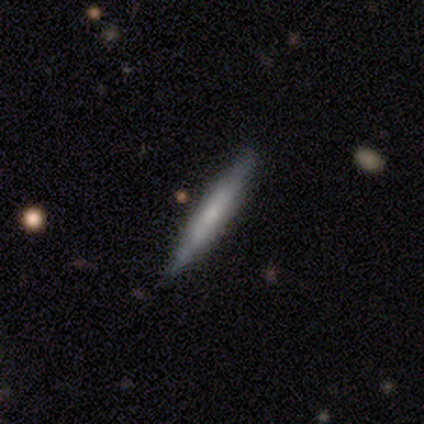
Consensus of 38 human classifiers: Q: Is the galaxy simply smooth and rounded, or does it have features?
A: featured or disk — 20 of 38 (53%).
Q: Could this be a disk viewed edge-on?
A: yes — 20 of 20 (100%).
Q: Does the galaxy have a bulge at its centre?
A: none — 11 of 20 (55%).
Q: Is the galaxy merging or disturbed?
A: none — 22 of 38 (58%).